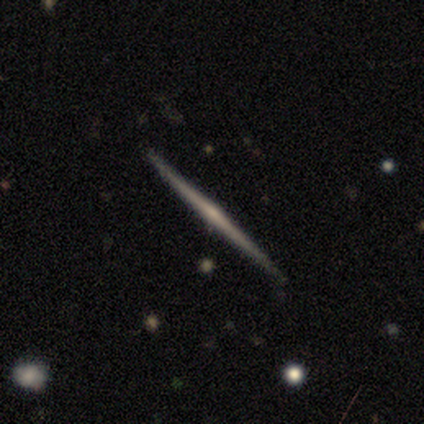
A featured or disk galaxy (80%) viewed edge-on (100%) with a rounded central bulge (75%).

Vote fractions:
- Smooth or featured? featured or disk: 80% / star or artifact: 20% / smooth: 0%
- Edge-on disk? yes: 100% / no: 0%
- Edge-on bulge? rounded: 75% / none: 25% / boxy: 0%
- Merging? none: 100% / minor disturbance: 0% / major disturbance: 0% / merger: 0%